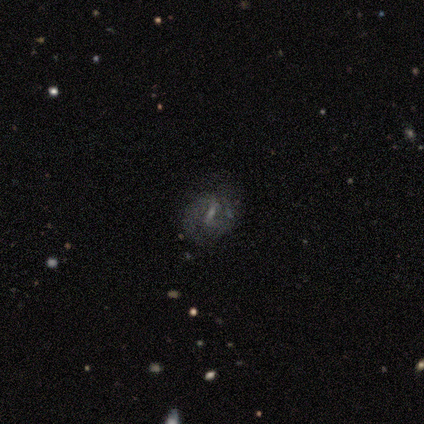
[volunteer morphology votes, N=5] Volunteers were most divided on "smooth or featured" (2-way tie): smooth: 40%, featured or disk: 40%, star or artifact: 20%; "how rounded" (2-way tie): in between: 50%, cigar-shaped: 50%, round: 0%. More confident: merging — none (75%).